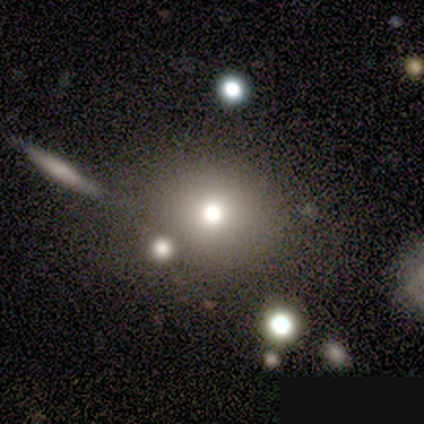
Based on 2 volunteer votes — This is clearly a smooth galaxy (100%). How rounded: clearly round (100%). Merging: possibly none (50%, tied with merger).